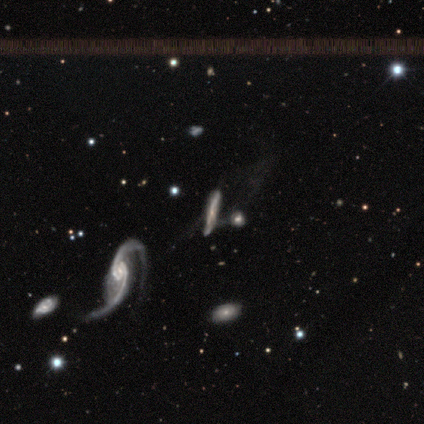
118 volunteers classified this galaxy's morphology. type=featured or disk (76%); edge-on=yes (50%, tied with no); edge-on bulge=none (51%); merging=merger (35%).